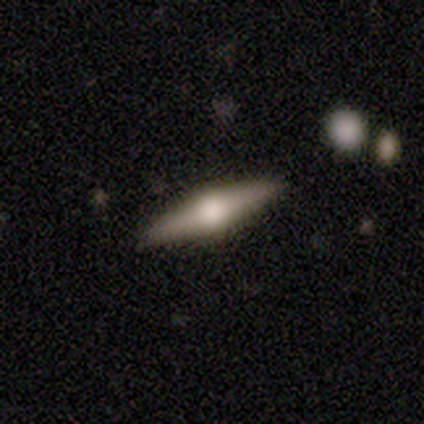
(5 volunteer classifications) Overall: featured or disk (80%). Edge-on disk: yes (100%). Edge-on bulge: rounded (100%). Merging: none (80%).